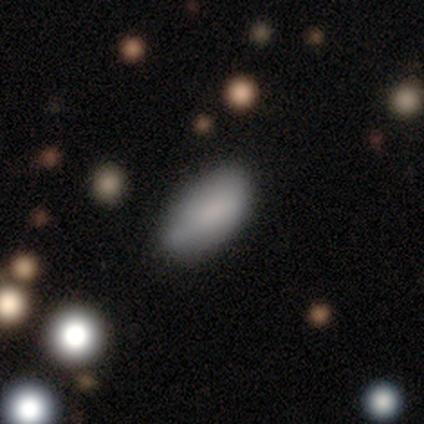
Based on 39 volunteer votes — Morphology: type=smooth (87%); roundness=in between (79%); merging=none (56%).